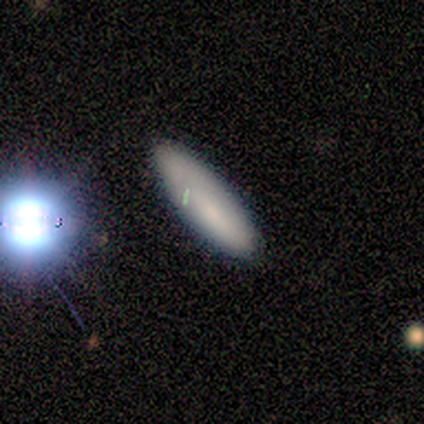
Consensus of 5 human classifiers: This is marginally a smooth galaxy (40%, tied with featured or disk). How rounded: clearly in between (100%). Merging: likely none (75%).